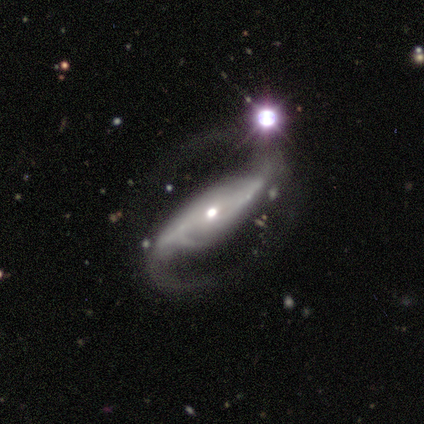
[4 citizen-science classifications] Smooth or featured? featured or disk (75%)
Edge-on disk? no (100%)
Bar? strong (100%)
Spiral arms? yes (100%)
Spiral winding? medium (100%)
Spiral arm count? 2 (100%)
Bulge size? small (100%)
Merging? none (100%)